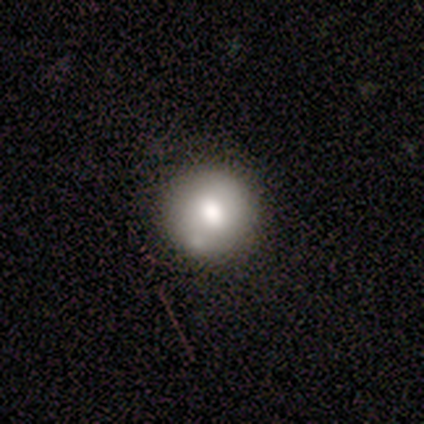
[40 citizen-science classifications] Morphology: type=smooth (75%); roundness=round (93%); merging=none (74%).